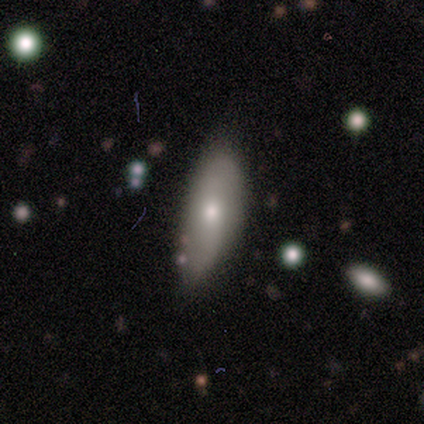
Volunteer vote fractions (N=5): A featured or disk galaxy (40%, tied with star or artifact) with a weak bar (50%, tied with no), 2 (100%) loose (100%) spiral arms (50%, tied with no) and a small central bulge (100%).

Vote fractions:
- Smooth or featured? featured or disk: 40% (tied) / star or artifact: 40% (tied) / smooth: 20%
- Edge-on disk? no: 100% / yes: 0%
- Bar? weak: 50% (tied) / no: 50% (tied) / strong: 0%
- Spiral arms? yes: 50% (tied) / no: 50% (tied)
- Spiral winding? loose: 100% / tight: 0% / medium: 0%
- Spiral arm count? 2: 100% / 1: 0% / 3: 0% / 4: 0% / more than 4: 0% / can't tell: 0%
- Bulge size? small: 100% / dominant: 0% / large: 0% / moderate: 0% / none: 0%
- Merging? none: 67% / minor disturbance: 33% / major disturbance: 0% / merger: 0%